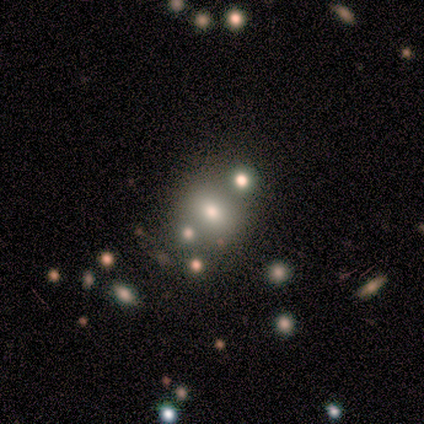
Smooth or featured: star or artifact — 60% (smooth — 40%)